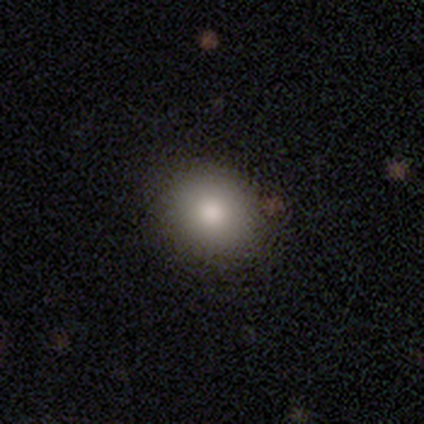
This appears to be a smooth galaxy with no disk features (87%) that is round (85%). Merging: none (64%).